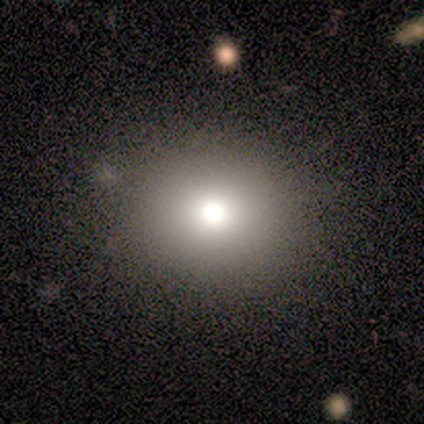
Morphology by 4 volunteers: smooth_or_featured: smooth (p=0.75) [alt: star or artifact p=0.25]
how_rounded: round (p=0.67) [alt: in between p=0.33]
merging: none (p=1.00)